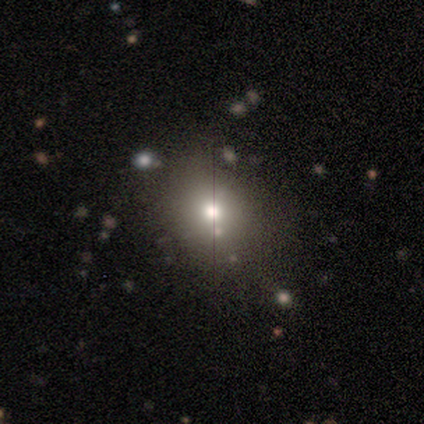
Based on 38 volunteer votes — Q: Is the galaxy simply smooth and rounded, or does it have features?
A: smooth — 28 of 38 (74%).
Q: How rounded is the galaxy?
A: round — 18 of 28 (64%).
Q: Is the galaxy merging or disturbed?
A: none — 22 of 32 (69%).